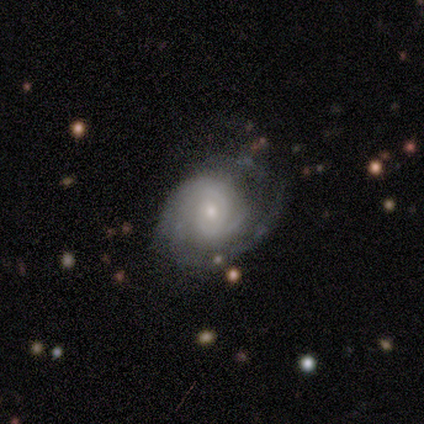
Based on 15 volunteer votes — This appears to be a featured or disk galaxy (93%) with no bar (86%), 3 (38%) tight (85%) spiral arms (93%) and a moderate central bulge (64%). Merging: none (71%).